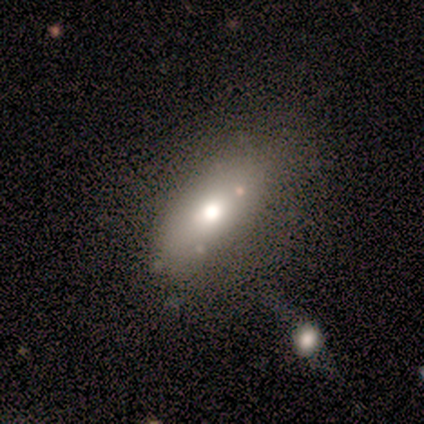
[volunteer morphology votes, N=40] Smooth or featured? smooth (70%)
How rounded? in between (93%)
Merging? none (56%)